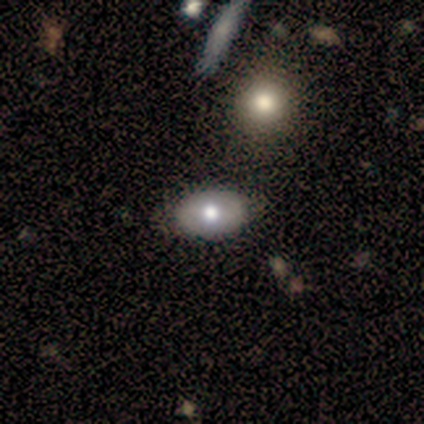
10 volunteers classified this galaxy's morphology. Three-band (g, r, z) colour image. It shows a smooth galaxy with no disk features (90%) that is in between round and cigar-shaped (100%). Merging: none (80%).